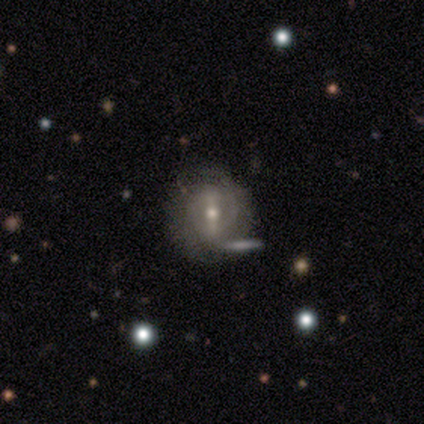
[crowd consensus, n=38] Smooth or featured: featured or disk — 76% (smooth — 21%)
Edge-on disk: no — 100%
Bar: strong — 55% (weak — 34%)
Spiral arms: yes — 55% (no — 45%)
Spiral winding: tight — 38% (tied with loose — 38%)
Spiral arm count: 2 — 62% (can't tell — 31%)
Bulge size: moderate — 72% (small — 24%)
Merging: none — 41% (merger — 19%)